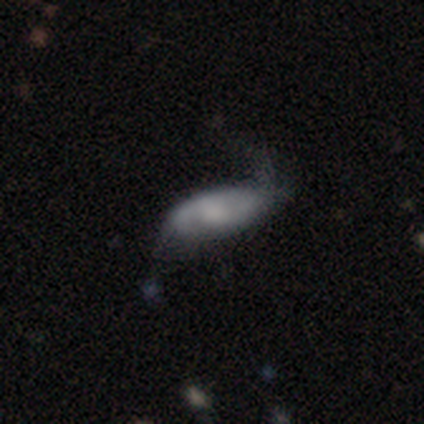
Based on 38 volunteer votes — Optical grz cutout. It shows a featured or disk galaxy (45%) with no bar (87%), 2 (55%) loose (91%) spiral arms (73%) and a moderate central bulge (40%). Merging: major disturbance (39%).